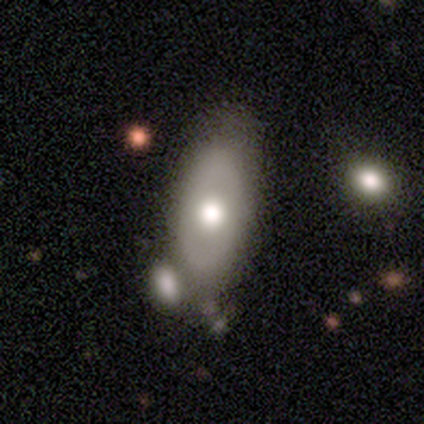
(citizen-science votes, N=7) smooth_or_featured: featured or disk (p=0.57) [alt: smooth p=0.29]
disk_edge_on: no (p=0.75) [alt: yes p=0.25]
bar: no (p=1.00)
has_spiral_arms: yes (p=0.67) [alt: no p=0.33]
spiral_winding: medium (p=1.00)
spiral_arm_count: 2 (p=0.50) [tied with: can't tell p=0.50]
bulge_size: moderate (p=0.67) [alt: small p=0.33]
merging: none (p=0.67) [alt: major disturbance p=0.17]